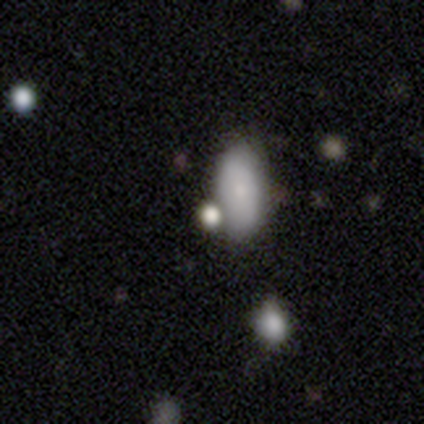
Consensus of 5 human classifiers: A smooth galaxy with no disk features (80%) that is in between round and cigar-shaped (100%). Merging: none (50%).